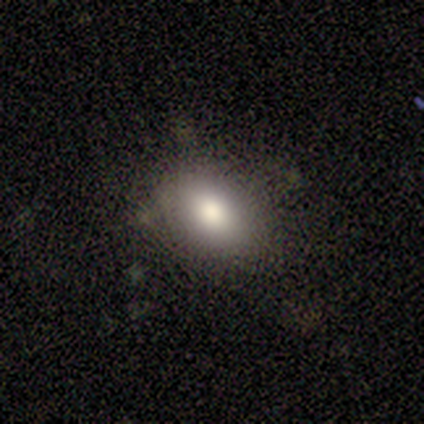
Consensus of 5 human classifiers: This is likely a smooth galaxy (60%). How rounded: likely round (67%). Merging: likely none (75%).